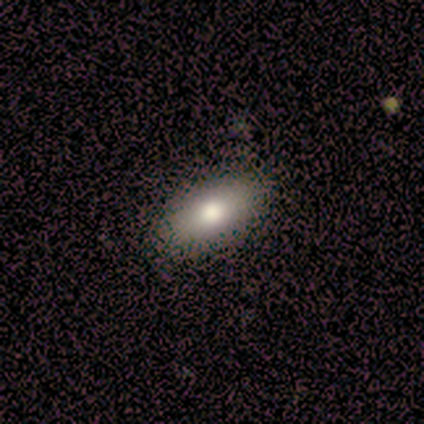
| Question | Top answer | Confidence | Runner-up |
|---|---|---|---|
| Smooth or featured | smooth | 100% | — |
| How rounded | in between | 100% | — |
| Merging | none | 86% | minor disturbance (14%) |